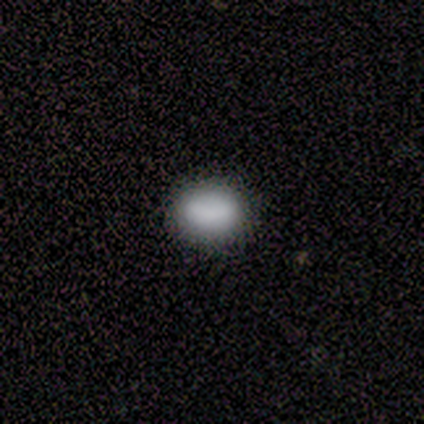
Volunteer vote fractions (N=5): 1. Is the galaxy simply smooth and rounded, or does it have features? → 80% smooth, 20% star or artifact, 0% featured or disk.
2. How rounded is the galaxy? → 75% in between, 25% round, 0% cigar-shaped.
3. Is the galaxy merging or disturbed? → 100% none, 0% minor disturbance, 0% major disturbance, 0% merger.